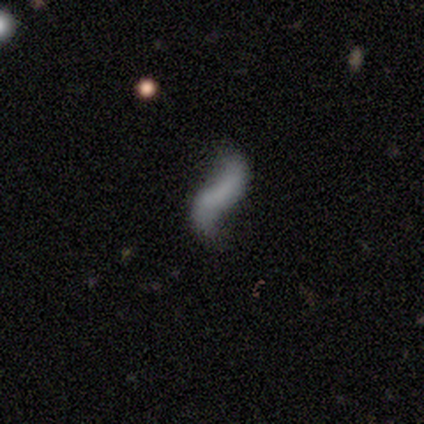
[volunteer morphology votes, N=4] smooth-or-featured: featured or disk: 100% | smooth: 0% | star or artifact: 0%
  disk-edge-on: no: 100% | yes: 0%
    bar: no: 50% | strong: 25% | weak: 25%
    has-spiral-arms: yes: 100% | no: 0%
      spiral-winding: loose: 100% | tight: 0% | medium: 0%
      spiral-arm-count: 2: 100% | 1: 0% | 3: 0% | 4: 0% | more than 4: 0% | can't tell: 0%
    bulge-size: none: 75% | small: 25% | dominant: 0% | large: 0% | moderate: 0%
  merging: none: 75% | minor disturbance: 25% | major disturbance: 0% | merger: 0%